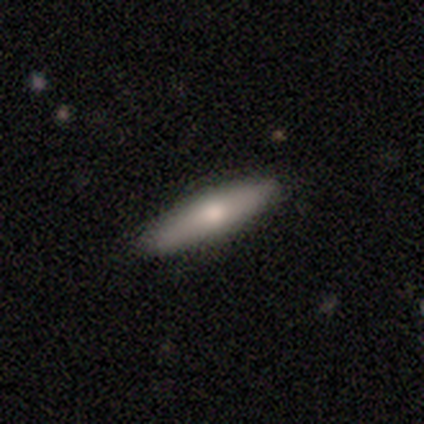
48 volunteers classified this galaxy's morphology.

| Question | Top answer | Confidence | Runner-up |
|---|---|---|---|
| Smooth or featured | smooth | 54% | featured or disk (40%) |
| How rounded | cigar-shaped | 69% | in between (31%) |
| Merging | none | 84% | minor disturbance (13%) |